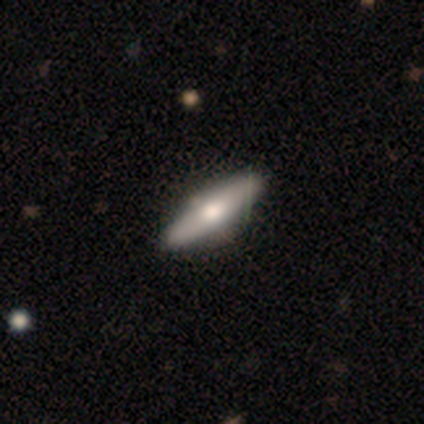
This is likely a featured or disk galaxy (60%). It is likely viewed edge-on (67%). Edge-on bulge: clearly rounded (100%). Merging: clearly none (80%).